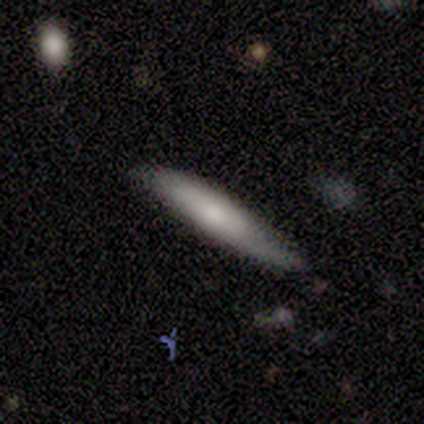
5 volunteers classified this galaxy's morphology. smooth-or-featured: smooth: 60% | featured or disk: 40% | star or artifact: 0%
  how-rounded: cigar-shaped: 100% | round: 0% | in between: 0%
  merging: none: 80% | minor disturbance: 20% | major disturbance: 0% | merger: 0%